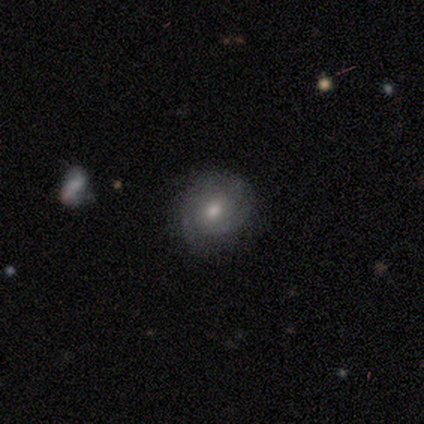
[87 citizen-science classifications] Overall: featured or disk (48%; smooth 47%). Edge-on disk: no (95%). Bar: no (85%). Spiral arms: yes (70%; no 30%). Spiral arm count: 2 (43%, tied with can't tell). Spiral winding: tight (64%). Bulge size: moderate (60%; small 32%). Merging: none (84%).